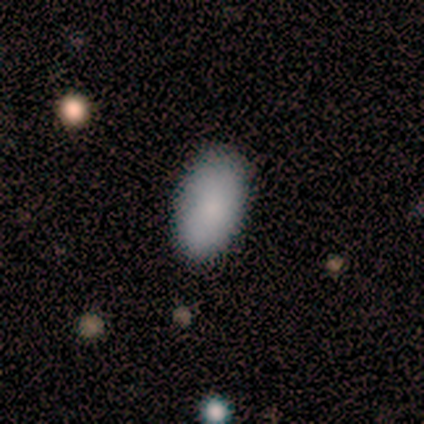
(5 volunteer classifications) smooth_or_featured: smooth (p=1.00)
how_rounded: in between (p=1.00)
merging: none (p=1.00)